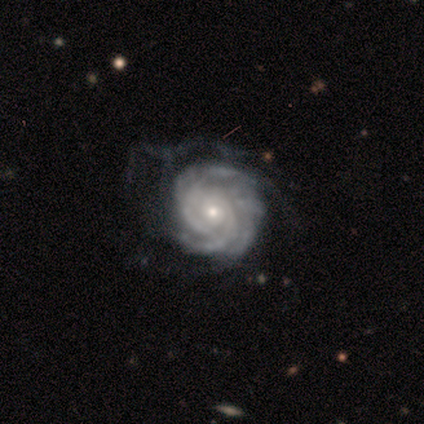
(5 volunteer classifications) smooth-or-featured: featured or disk: 100% | smooth: 0% | star or artifact: 0%
  disk-edge-on: no: 80% | yes: 20%
    bar: no: 75% | strong: 25% | weak: 0%
    has-spiral-arms: yes: 100% | no: 0%
      spiral-winding: tight: 75% | loose: 25% | medium: 0%
      spiral-arm-count: 3: 50% | 4: 25% | more than 4: 25% | 1: 0% | 2: 0% | can't tell: 0%
    bulge-size: small: 100% | dominant: 0% | large: 0% | moderate: 0% | none: 0%
  merging: major disturbance: 60% | none: 40% | minor disturbance: 0% | merger: 0%